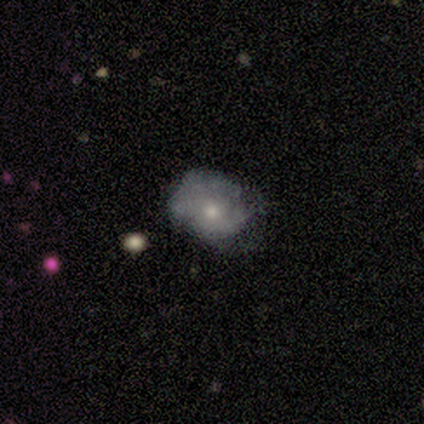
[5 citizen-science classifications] Volunteers were most divided on "merging": none: 50%, minor disturbance: 25%, major disturbance: 25%, merger: 0%. More confident: how rounded — round (67%); smooth or featured — smooth (60%).